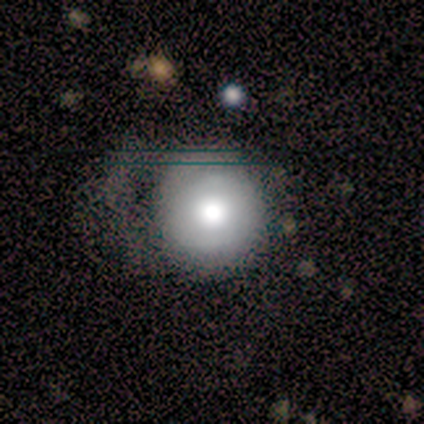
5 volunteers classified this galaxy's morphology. type=smooth (60%); roundness=round (100%); merging=none (75%).